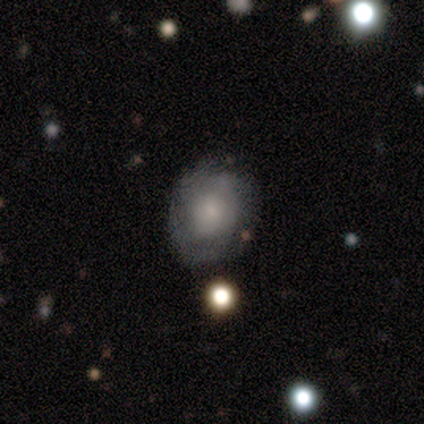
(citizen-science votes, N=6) Q: Smooth or featured?
A: smooth (50%); tied with: featured or disk (50%)
Q: How rounded?
A: round (100%)
Q: Merging?
A: none (67%); runner-up: minor disturbance (33%)